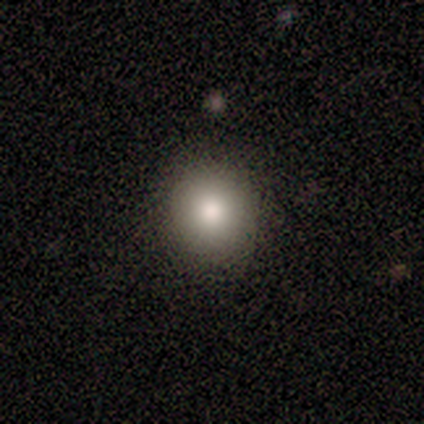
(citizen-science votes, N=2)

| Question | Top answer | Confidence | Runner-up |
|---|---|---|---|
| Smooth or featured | smooth | 100% | — |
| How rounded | round | 100% | — |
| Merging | none | 50% | tied: minor disturbance (50%) |